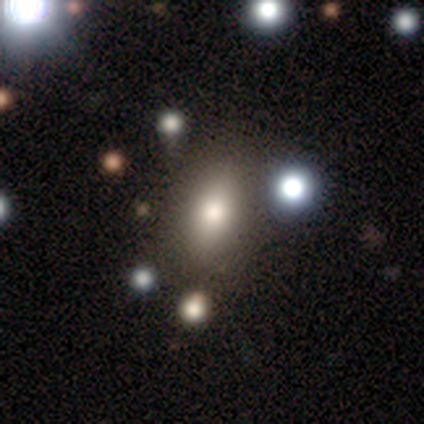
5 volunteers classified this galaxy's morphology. smooth_or_featured: star or artifact (p=0.60) [alt: smooth p=0.20]